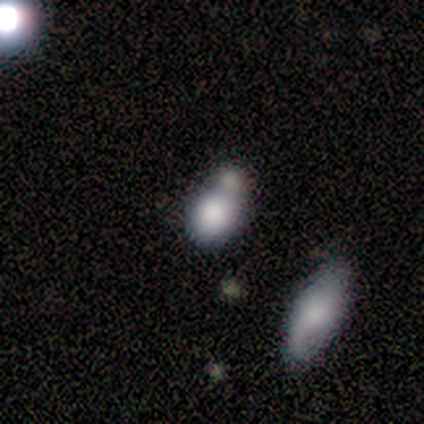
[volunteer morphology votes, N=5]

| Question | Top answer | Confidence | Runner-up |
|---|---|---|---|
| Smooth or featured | smooth | 60% | featured or disk (20%) |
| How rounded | round | 67% | in between (33%) |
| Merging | minor disturbance | 50% | tied: merger (50%) |